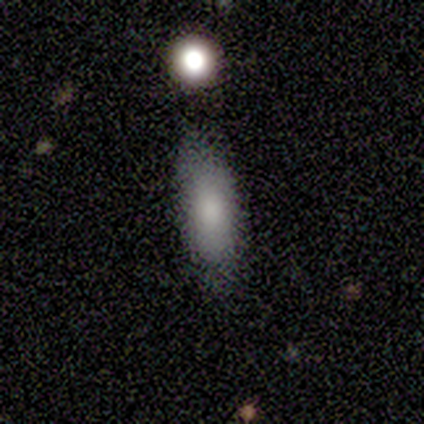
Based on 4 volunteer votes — smooth 100%, featured or disk 0%, star or artifact 0%. Down the decision tree: how rounded — in between (50%, tied with cigar-shaped); merging — none (75%).